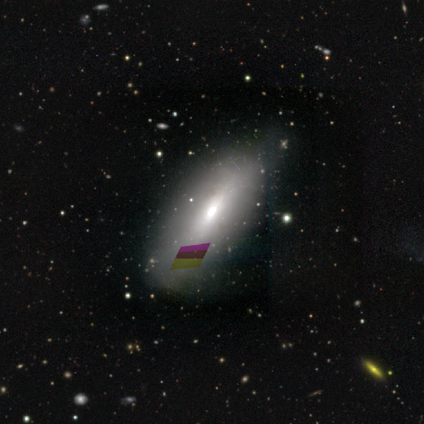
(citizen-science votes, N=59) This is marginally a smooth galaxy (44%). How rounded: possibly in between (58%). Merging: likely none (73%).